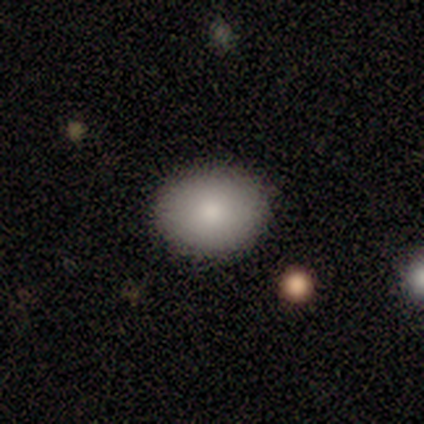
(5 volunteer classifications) Overall: smooth (100%). How rounded: in between (60%; round 40%). Merging: none (100%).